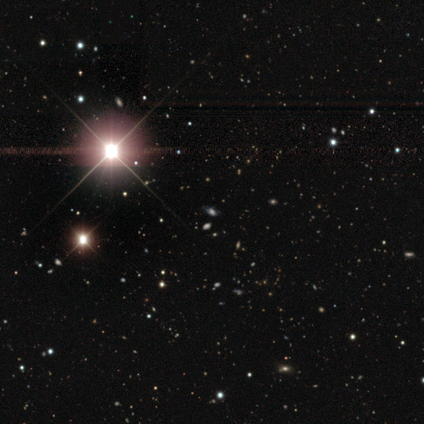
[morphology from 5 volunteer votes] Smooth or featured? 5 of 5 (100%) said star or artifact.